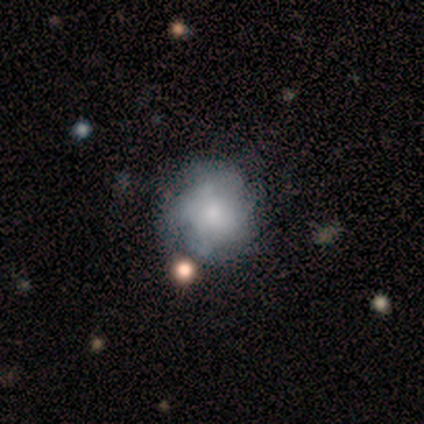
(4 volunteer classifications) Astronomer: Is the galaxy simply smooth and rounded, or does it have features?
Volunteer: featured or disk — 50%.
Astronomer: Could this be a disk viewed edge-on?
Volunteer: no — 100%.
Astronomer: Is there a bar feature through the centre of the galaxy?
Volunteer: no — 100%.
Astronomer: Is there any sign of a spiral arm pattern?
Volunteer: no — 100%.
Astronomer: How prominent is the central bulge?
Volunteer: small — 100%.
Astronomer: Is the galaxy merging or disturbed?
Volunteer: none — 33%, tied with minor disturbance and major disturbance at 33%.